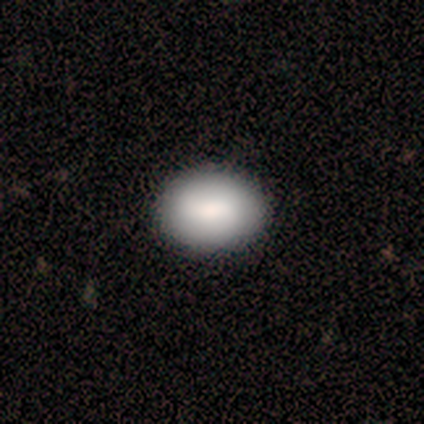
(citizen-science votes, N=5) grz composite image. It shows a smooth galaxy with no disk features (60%) that is in between round and cigar-shaped (67%). Merging: none (75%).